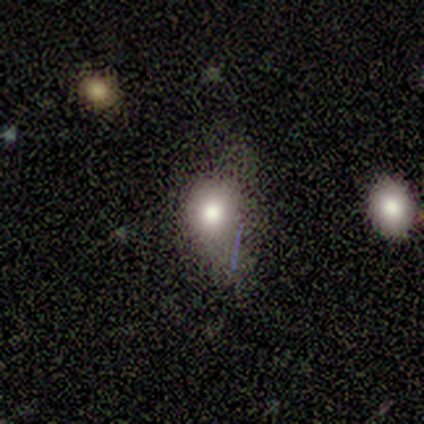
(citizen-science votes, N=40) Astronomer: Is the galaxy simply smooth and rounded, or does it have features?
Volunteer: smooth — 70%.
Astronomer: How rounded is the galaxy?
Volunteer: round — 61% (runner-up: in between, 36%).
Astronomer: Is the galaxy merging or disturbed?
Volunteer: minor disturbance — 47% (runner-up: none, 38%).